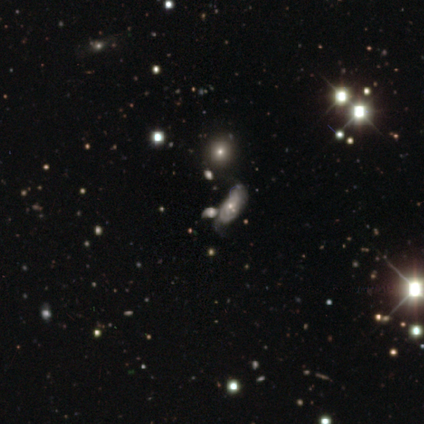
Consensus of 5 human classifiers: Volunteers were most divided on "smooth or featured": star or artifact: 60%, smooth: 20%, featured or disk: 20%.